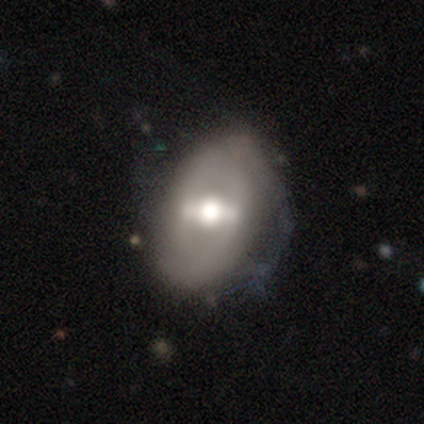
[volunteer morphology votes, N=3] Q: Smooth or featured?
A: featured or disk (100%)
Q: Edge-on disk?
A: no (100%)
Q: Bar?
A: weak (67%); runner-up: strong (33%)
Q: Spiral arms?
A: no (67%); runner-up: yes (33%)
Q: Bulge size?
A: large (67%); runner-up: moderate (33%)
Q: Merging?
A: minor disturbance (67%); runner-up: none (33%)